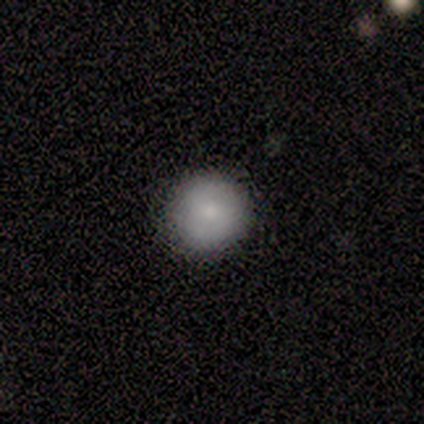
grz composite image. It shows a smooth galaxy with no disk features (60%) that is round (100%). Merging: none (100%).